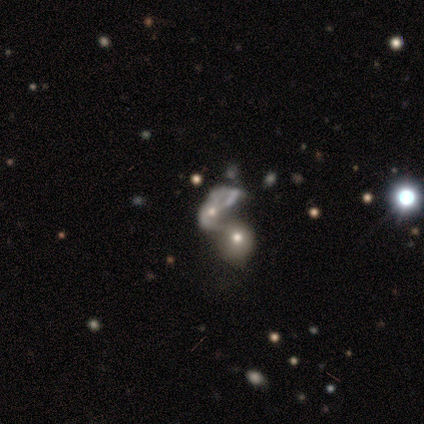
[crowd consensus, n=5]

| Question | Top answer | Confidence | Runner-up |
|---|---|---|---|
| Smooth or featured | smooth | 60% | featured or disk (20%) |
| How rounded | round | 100% | — |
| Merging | merger | 50% | none (25%) |